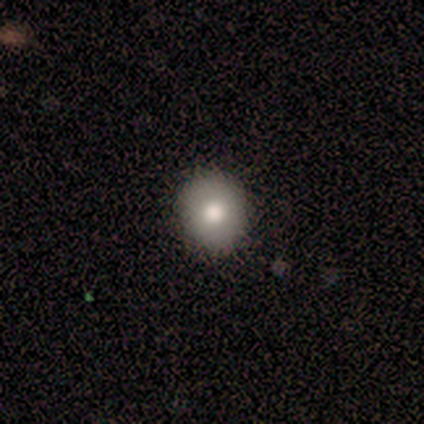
This is clearly a smooth galaxy (80%). How rounded: possibly round (50%, tied with in between). Merging: likely none (75%).